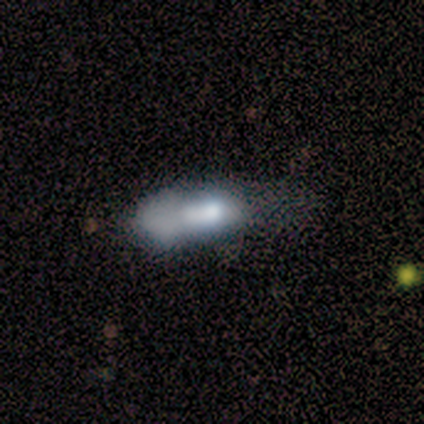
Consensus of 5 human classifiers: smooth 60%, featured or disk 20%, star or artifact 20%. Down the decision tree: how rounded — in between (67%); merging — merger (50%).